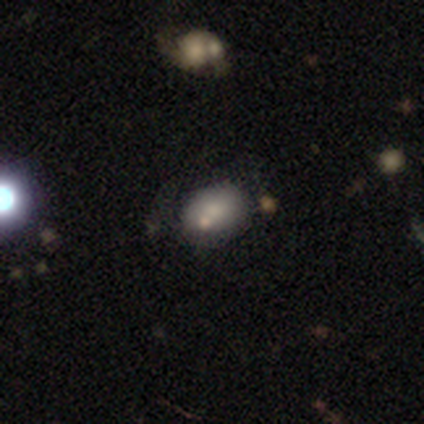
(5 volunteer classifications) A smooth galaxy with no disk features (80%) that is in between round and cigar-shaped (100%).

Vote fractions:
- Smooth or featured? smooth: 80% / star or artifact: 20% / featured or disk: 0%
- How rounded? in between: 100% / round: 0% / cigar-shaped: 0%
- Merging? none: 100% / minor disturbance: 0% / major disturbance: 0% / merger: 0%